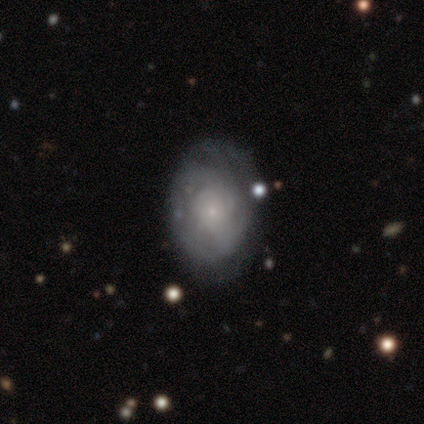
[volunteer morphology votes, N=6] This is likely a featured or disk galaxy (67%). It is clearly not viewed edge-on (100%). Bar: possibly weak (50%, tied with no). Spiral arm pattern: likely yes (75%). Spiral arm count: likely can't tell (67%). Spiral winding: clearly tight (100%). Central bulge: clearly small (100%). Merging: clearly none (83%).